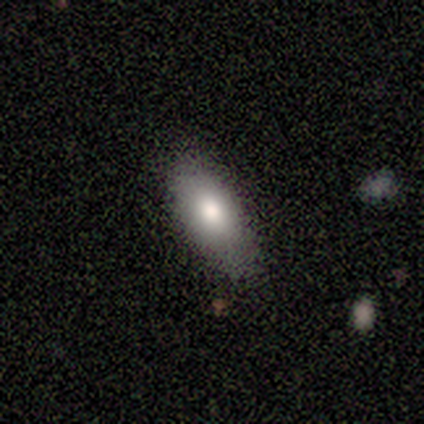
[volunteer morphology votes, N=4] A smooth galaxy with no disk features (100%) that is in between round and cigar-shaped (75%). Merging: none (50%, tied with minor disturbance).